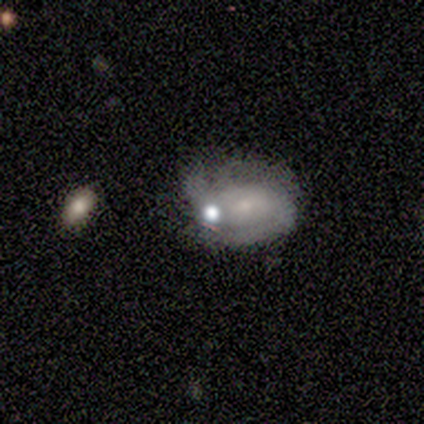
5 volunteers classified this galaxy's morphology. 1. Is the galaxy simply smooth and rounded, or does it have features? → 80% featured or disk, 20% smooth, 0% star or artifact.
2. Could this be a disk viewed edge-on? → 100% no, 0% yes.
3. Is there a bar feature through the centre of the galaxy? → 75% no, 25% weak, 0% strong.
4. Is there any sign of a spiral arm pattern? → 50% yes (tied), 50% no (tied).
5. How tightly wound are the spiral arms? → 100% tight, 0% medium, 0% loose.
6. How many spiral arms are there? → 50% 2 (tied), 50% can't tell (tied), 0% 1, 0% 3, 0% 4, 0% more than 4.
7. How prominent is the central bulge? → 75% small, 25% none, 0% dominant, 0% large, 0% moderate.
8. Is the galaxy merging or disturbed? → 40% none, 20% minor disturbance, 20% major disturbance, 20% merger.